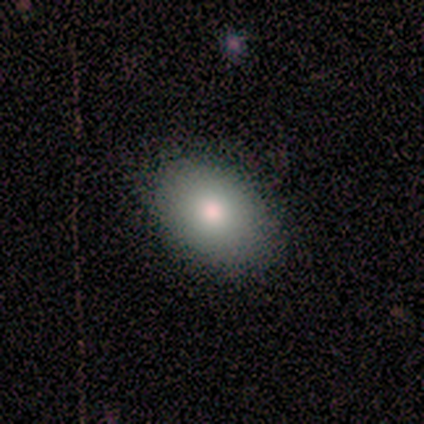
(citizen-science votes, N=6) Q: Smooth or featured?
A: smooth (100%)
Q: How rounded?
A: in between (100%)
Q: Merging?
A: none (83%); runner-up: minor disturbance (17%)